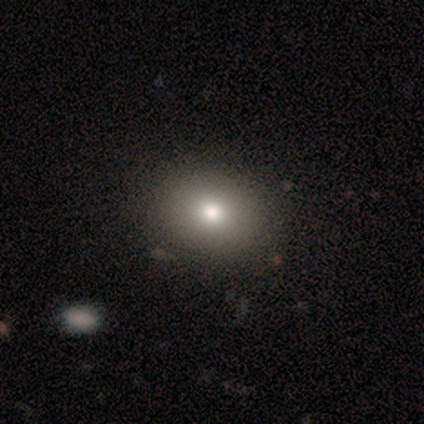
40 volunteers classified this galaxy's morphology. A smooth galaxy with no disk features (75%) that is round (60%).

Vote fractions:
- Smooth or featured? smooth: 75% / featured or disk: 15% / star or artifact: 10%
- How rounded? round: 60% / in between: 40% / cigar-shaped: 0%
- Merging? none: 61% / major disturbance: 6% / merger: 6% / minor disturbance: 3%